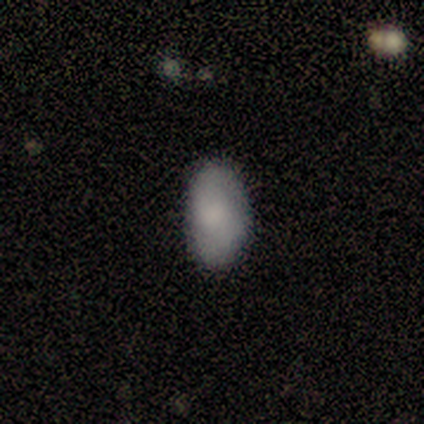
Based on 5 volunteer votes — Overall: smooth (80%). How rounded: in between (100%). Merging: none (100%).